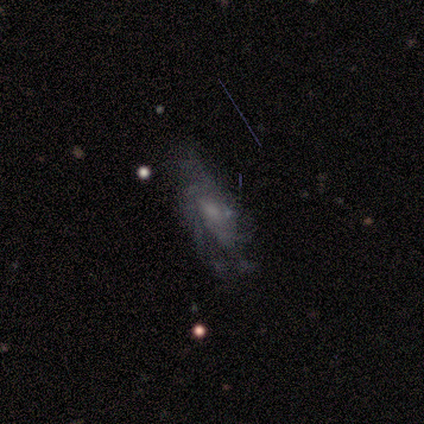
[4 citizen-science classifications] Overall: featured or disk (100%). Edge-on disk: no (100%). Bar: no (75%). Spiral arms: yes (100%). Spiral arm count: can't tell (75%). Spiral winding: medium (50%; tight 25%). Bulge size: moderate (50%; small 25%). Merging: none (75%).